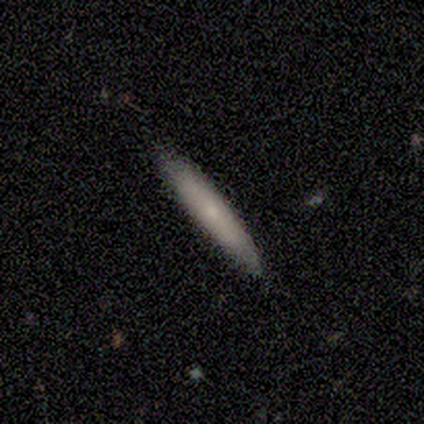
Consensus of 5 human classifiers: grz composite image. It shows a smooth galaxy with no disk features (60%) that is cigar-shaped (100%). Merging: none (100%).